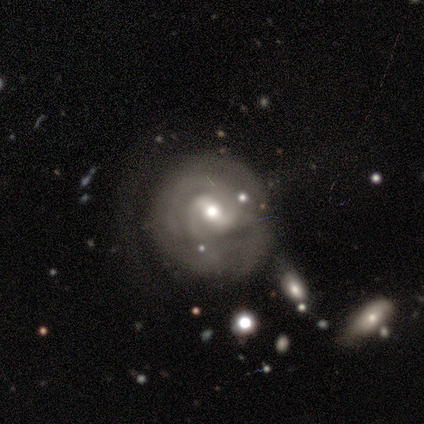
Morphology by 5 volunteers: A featured or disk galaxy (60%) with a weak bar (100%), 2 (50%, tied with can't tell) medium (50%, tied with loose) spiral arms (100%) and a moderate central bulge (50%, tied with small). Merging: none (60%).